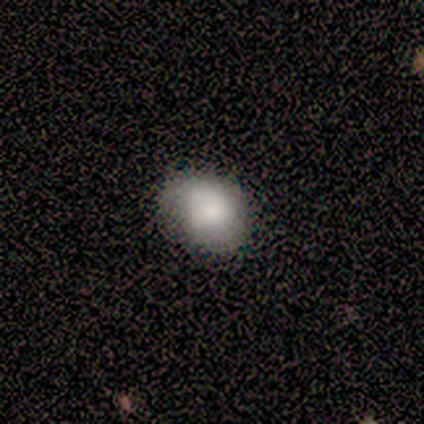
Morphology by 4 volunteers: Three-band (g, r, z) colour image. It shows a smooth galaxy with no disk features (100%) that is round (50%, tied with in between). Merging: none (100%).